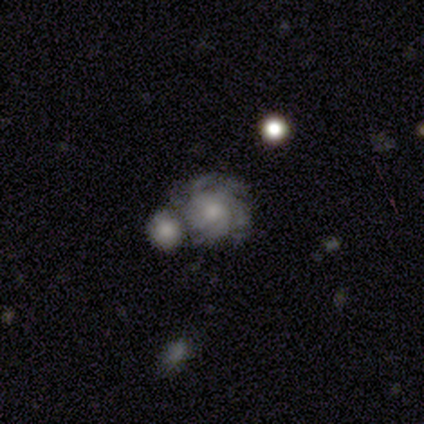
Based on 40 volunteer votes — Smooth or featured? 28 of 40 (70%) said featured or disk. Edge-on disk? 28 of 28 (100%) said no. Bar? 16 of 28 (57%) said no. Spiral arms? 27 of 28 (96%) said yes. Spiral winding? 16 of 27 (59%) said tight. Spiral arm count? 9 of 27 (33%) said more than 4. Bulge size? 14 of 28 (50%) said moderate. Merging? 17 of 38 (45%) said none.